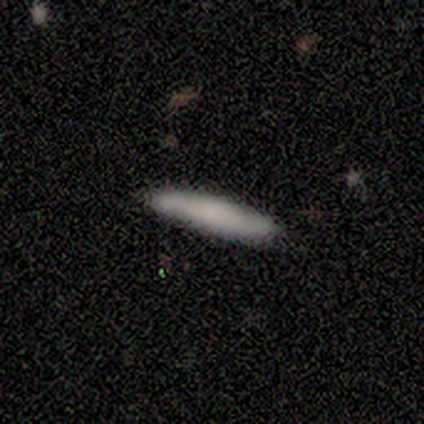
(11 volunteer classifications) smooth 73%, featured or disk 27%, star or artifact 0%. Down the decision tree: how rounded — cigar-shaped (100%); merging — none (100%).